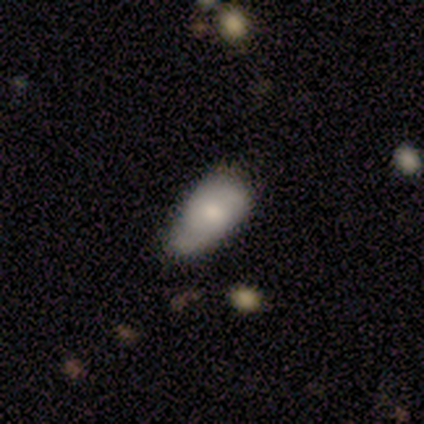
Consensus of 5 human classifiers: A smooth galaxy with no disk features (40%, tied with featured or disk) that is in between round and cigar-shaped (100%). Merging: minor disturbance (50%, tied with major disturbance).